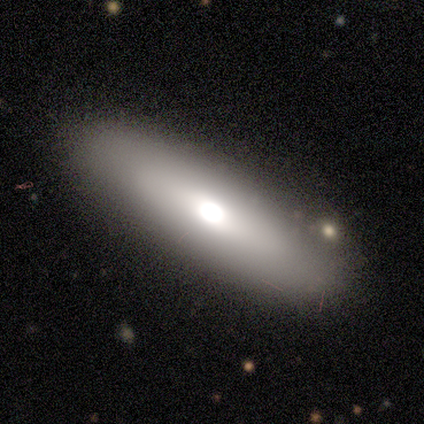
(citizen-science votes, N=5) Smooth or featured?
  - smooth: 40% * (tied)
  - star or artifact: 40% * (tied)
  - featured or disk: 20%
How rounded?
  - cigar-shaped: 100% *
  - round: 0%
  - in between: 0%
Merging?
  - none: 100% *
  - minor disturbance: 0%
  - major disturbance: 0%
  - merger: 0%